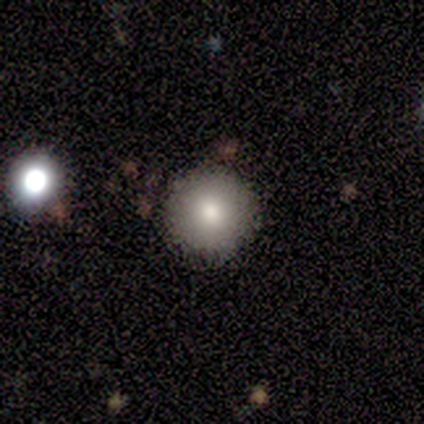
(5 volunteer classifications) Overall: smooth (80%). How rounded: round (100%). Merging: none (75%).